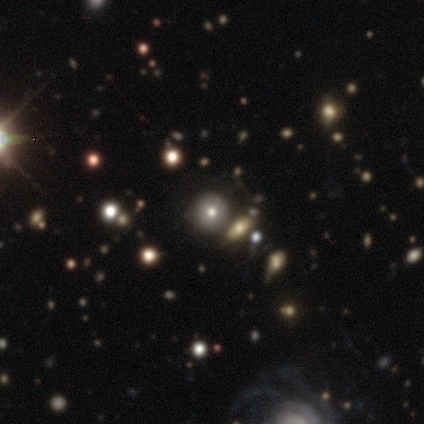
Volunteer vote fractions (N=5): Smooth or featured? star or artifact (60%)